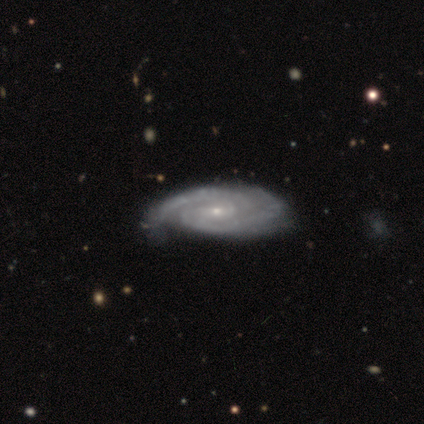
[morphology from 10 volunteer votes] smooth-or-featured: featured or disk: 90% | smooth: 10% | star or artifact: 0%
  disk-edge-on: no: 67% | yes: 33%
    bar: strong: 33% (tied) | weak: 33% (tied) | no: 33% (tied)
    has-spiral-arms: yes: 100% | no: 0%
      spiral-winding: tight: 83% | loose: 17% | medium: 0%
      spiral-arm-count: 2: 67% | 3: 17% | 4: 17% | 1: 0% | more than 4: 0% | can't tell: 0%
    bulge-size: small: 83% | moderate: 17% | dominant: 0% | large: 0% | none: 0%
  merging: none: 60% | minor disturbance: 30% | merger: 10% | major disturbance: 0%